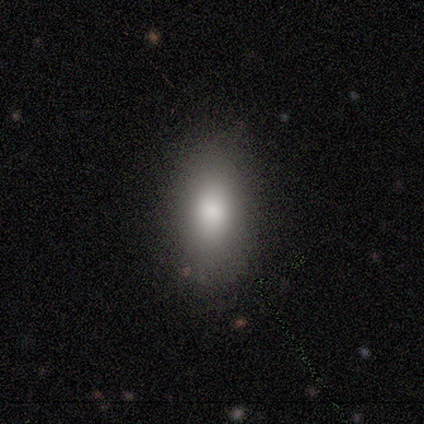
smooth_or_featured: smooth (p=0.80) [alt: featured or disk p=0.20]
how_rounded: in between (p=0.75) [alt: round p=0.25]
merging: none (p=0.80) [alt: major disturbance p=0.20]